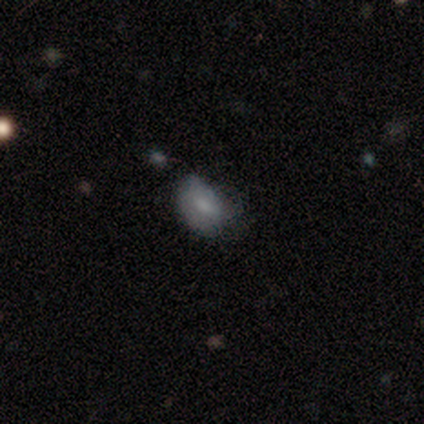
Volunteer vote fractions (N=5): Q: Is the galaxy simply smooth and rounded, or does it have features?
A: smooth — 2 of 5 (40%, tied with star or artifact).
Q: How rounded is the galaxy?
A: in between — 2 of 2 (100%).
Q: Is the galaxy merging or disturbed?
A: none — 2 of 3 (67%).